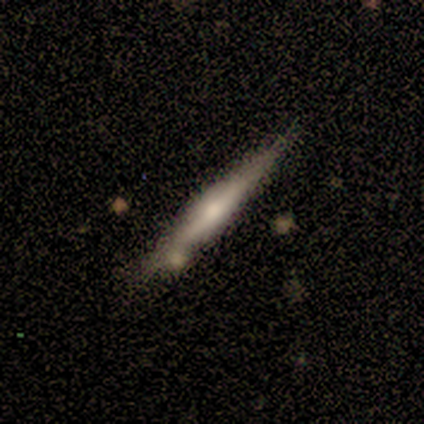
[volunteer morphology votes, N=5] Volunteers were most divided on "edge-on bulge": rounded: 60%, boxy: 40%, none: 0%. More confident: smooth or featured — featured or disk (100%); edge-on disk — yes (100%); merging — none (60%).